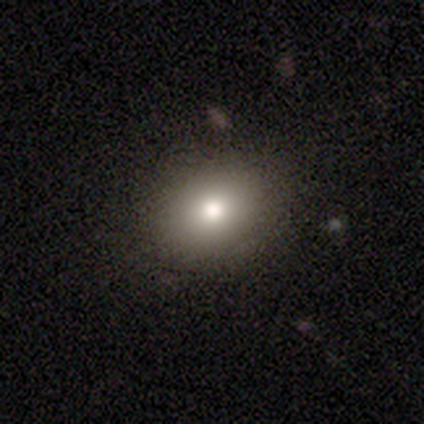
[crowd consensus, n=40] This appears to be a smooth galaxy with no disk features (88%) that is round (69%). Merging: none (89%).